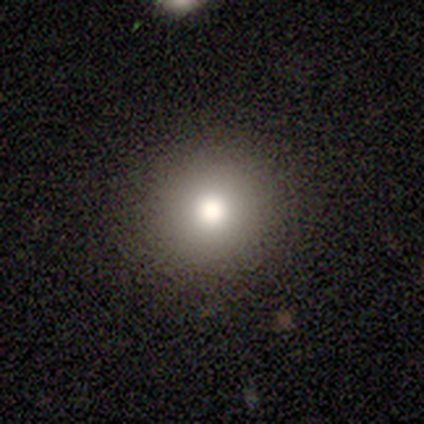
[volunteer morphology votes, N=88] A smooth galaxy with no disk features (80%) that is round (94%). Merging: none (93%).